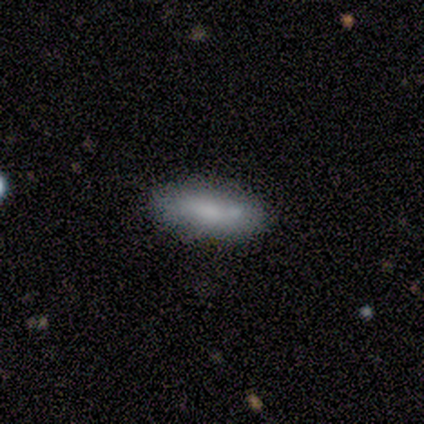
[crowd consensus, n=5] smooth-or-featured: smooth: 60% | featured or disk: 20% | star or artifact: 20%
  how-rounded: cigar-shaped: 100% | round: 0% | in between: 0%
  merging: none: 100% | minor disturbance: 0% | major disturbance: 0% | merger: 0%